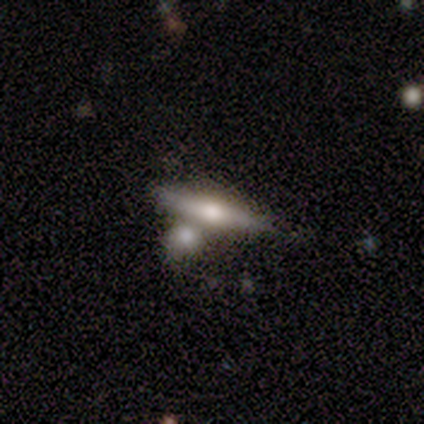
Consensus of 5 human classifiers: This is likely a featured or disk galaxy (60%). It is clearly viewed edge-on (100%). Edge-on bulge: clearly rounded (100%). Merging: likely none (60%).